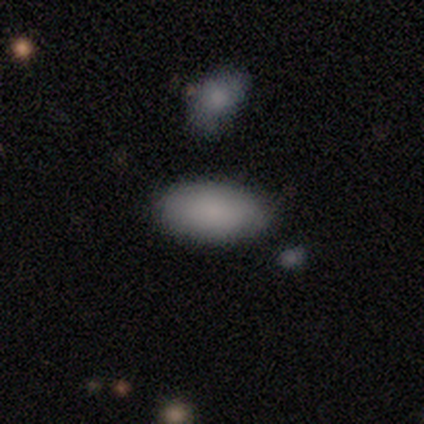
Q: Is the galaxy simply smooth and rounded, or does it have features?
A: smooth — 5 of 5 (100%).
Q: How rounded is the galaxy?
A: in between — 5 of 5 (100%).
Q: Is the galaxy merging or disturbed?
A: none — 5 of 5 (100%).